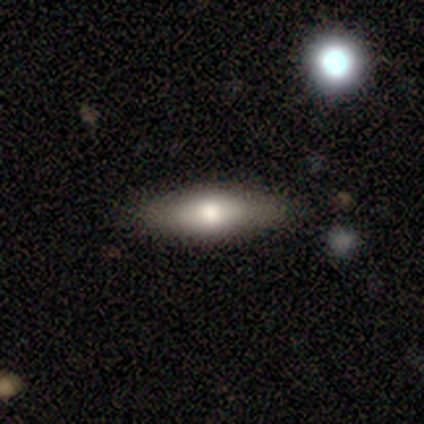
Smooth or featured?
  - smooth: 77% *
  - featured or disk: 18%
  - star or artifact: 5%
How rounded?
  - in between: 53% *
  - cigar-shaped: 47%
  - round: 0%
Merging?
  - none: 86% *
  - minor disturbance: 11%
  - major disturbance: 3%
  - merger: 0%